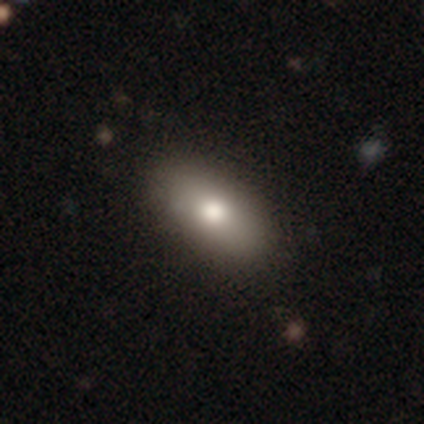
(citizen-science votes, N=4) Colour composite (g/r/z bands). It shows a featured or disk galaxy (75%) with no bar (100%), no spiral arms (100%) and a moderate central bulge (67%). Merging: none (100%).